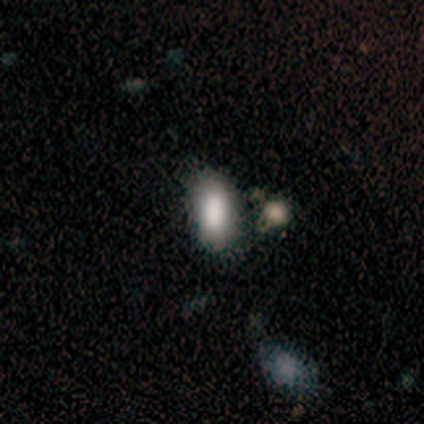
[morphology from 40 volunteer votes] Smooth or featured?
  - smooth: 70% *
  - star or artifact: 20%
  - featured or disk: 10%
How rounded?
  - in between: 82% *
  - cigar-shaped: 14%
  - round: 4%
Merging?
  - none: 50% *
  - merger: 34%
  - minor disturbance: 12%
  - major disturbance: 3%